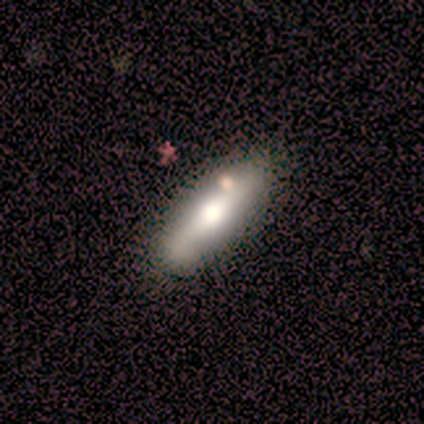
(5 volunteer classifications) A smooth galaxy with no disk features (60%) that is in between round and cigar-shaped (67%).

Vote fractions:
- Smooth or featured? smooth: 60% / featured or disk: 40% / star or artifact: 0%
- How rounded? in between: 67% / cigar-shaped: 33% / round: 0%
- Merging? none: 40% (tied) / merger: 40% (tied) / major disturbance: 20% / minor disturbance: 0%